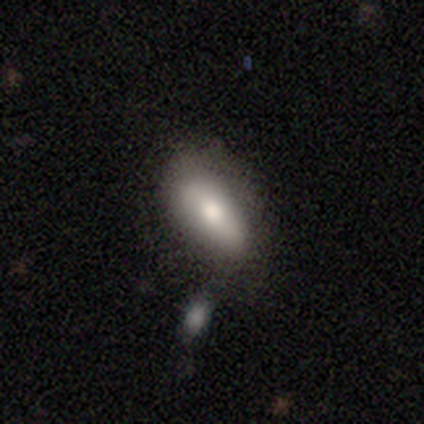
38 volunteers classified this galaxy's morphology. A smooth galaxy with no disk features (79%) that is in between round and cigar-shaped (90%).

Vote fractions:
- Smooth or featured? smooth: 79% / featured or disk: 16% / star or artifact: 5%
- How rounded? in between: 90% / cigar-shaped: 10% / round: 0%
- Merging? none: 64% / minor disturbance: 25% / merger: 11% / major disturbance: 0%